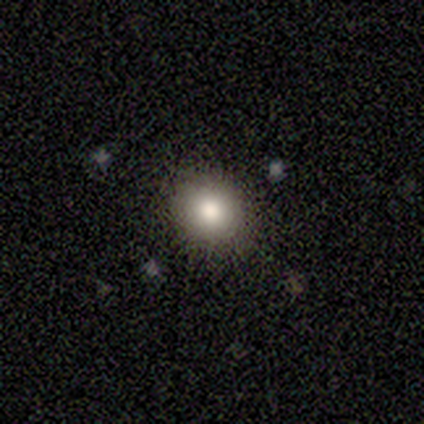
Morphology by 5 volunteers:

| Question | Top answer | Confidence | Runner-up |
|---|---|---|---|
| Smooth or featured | smooth | 80% | featured or disk (20%) |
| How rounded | round | 100% | — |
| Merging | none | 80% | minor disturbance (20%) |